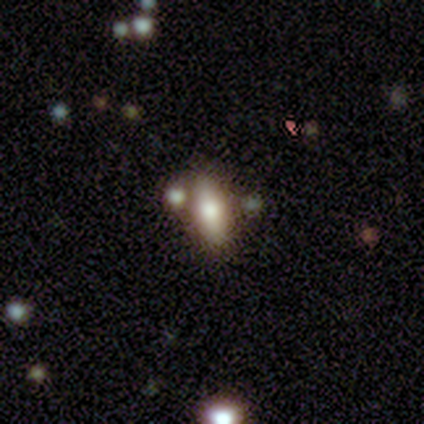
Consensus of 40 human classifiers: Smooth or featured? 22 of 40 (55%) said smooth. How rounded? 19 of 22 (86%) said in between. Merging? 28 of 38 (74%) said none.